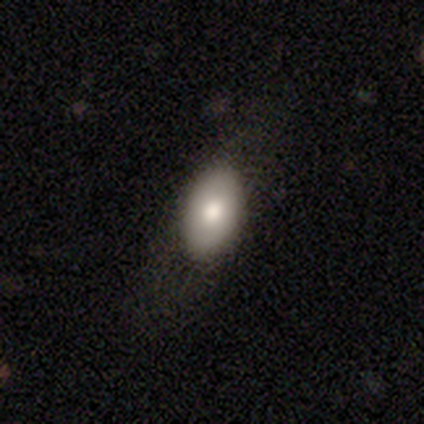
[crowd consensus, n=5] Q: Smooth or featured?
A: smooth (60%); runner-up: featured or disk (20%)
Q: How rounded?
A: in between (100%)
Q: Merging?
A: none (75%); runner-up: minor disturbance (25%)